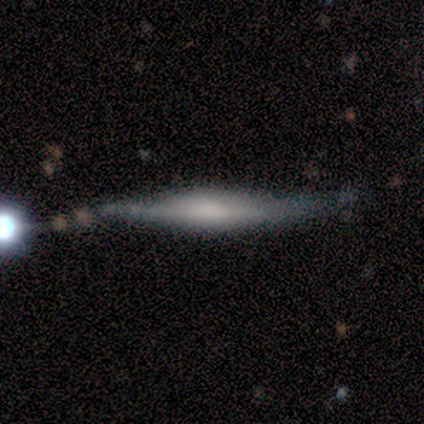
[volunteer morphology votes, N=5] type=featured or disk (60%); edge-on=yes (100%); edge-on bulge=rounded (67%); merging=none (60%).